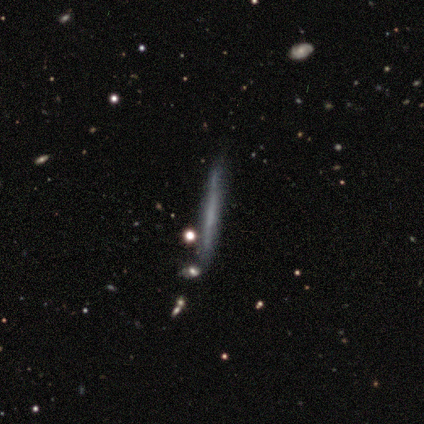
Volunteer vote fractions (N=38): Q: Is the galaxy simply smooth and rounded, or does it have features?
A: featured or disk — 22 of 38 (58%).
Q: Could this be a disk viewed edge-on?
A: yes — 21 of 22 (95%).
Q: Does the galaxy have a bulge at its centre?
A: none — 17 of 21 (81%).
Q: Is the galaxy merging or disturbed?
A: none — 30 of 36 (83%).